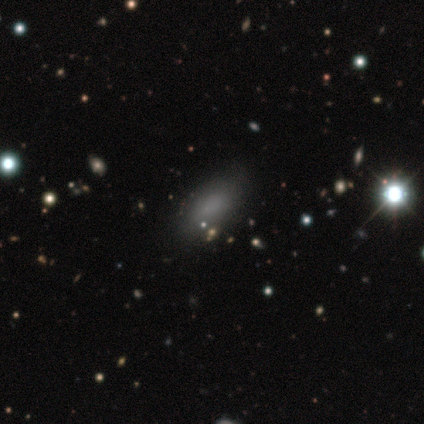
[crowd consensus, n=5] Morphology: type=smooth (60%); roundness=in between (100%); merging=none (100%).